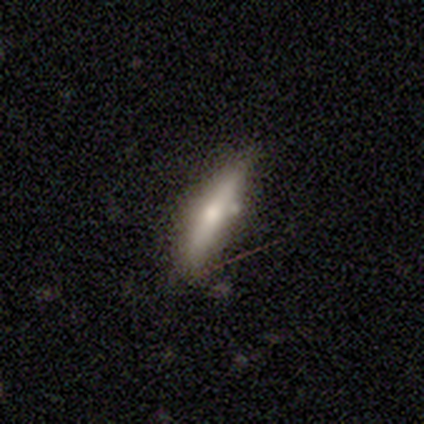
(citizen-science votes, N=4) smooth-or-featured: featured or disk: 50% | smooth: 25% | star or artifact: 25%
  disk-edge-on: yes: 100% | no: 0%
    edge-on-bulge: rounded: 100% | boxy: 0% | none: 0%
  merging: minor disturbance: 67% | none: 33% | major disturbance: 0% | merger: 0%